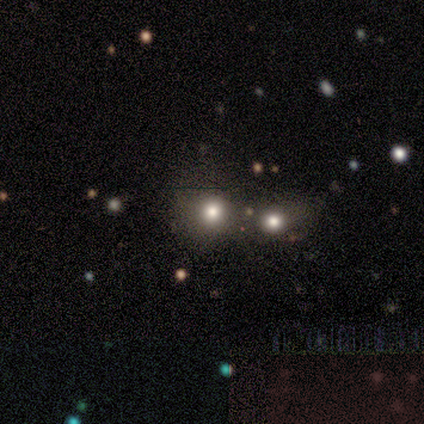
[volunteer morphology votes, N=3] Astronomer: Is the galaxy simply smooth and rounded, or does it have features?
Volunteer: smooth — 100%.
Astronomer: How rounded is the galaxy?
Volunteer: round — 67%.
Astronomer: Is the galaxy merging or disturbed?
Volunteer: none — 33%, tied with minor disturbance and merger at 33%.